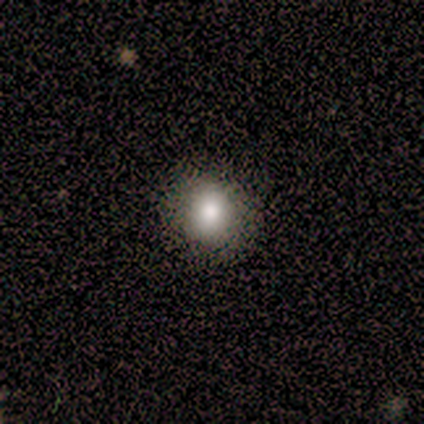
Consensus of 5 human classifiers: Q: Smooth or featured?
A: smooth (100%)
Q: How rounded?
A: round (100%)
Q: Merging?
A: none (80%); runner-up: minor disturbance (20%)